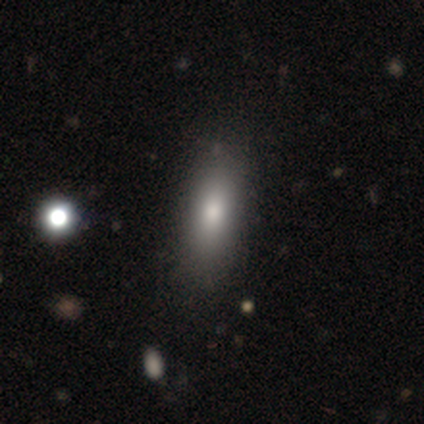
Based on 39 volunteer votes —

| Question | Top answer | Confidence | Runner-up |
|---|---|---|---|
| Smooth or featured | smooth | 77% | featured or disk (15%) |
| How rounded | in between | 77% | cigar-shaped (23%) |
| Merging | none | 58% | minor disturbance (11%) |